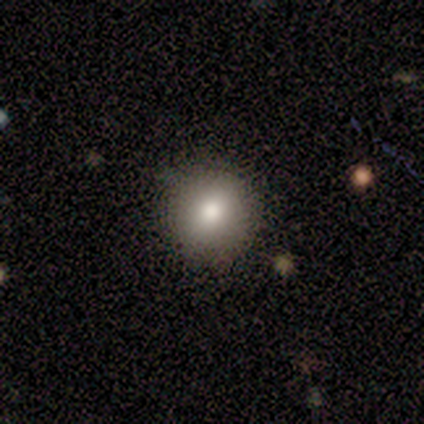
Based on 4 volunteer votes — Smooth or featured? 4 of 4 (100%) said smooth. How rounded? 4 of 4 (100%) said round. Merging? 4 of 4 (100%) said none.